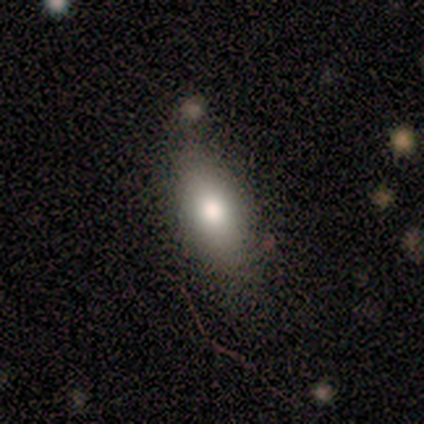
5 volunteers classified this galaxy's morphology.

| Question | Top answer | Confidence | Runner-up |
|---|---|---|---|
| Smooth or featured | smooth | 60% | featured or disk (40%) |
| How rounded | in between | 100% | — |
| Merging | minor disturbance | 60% | none (40%) |